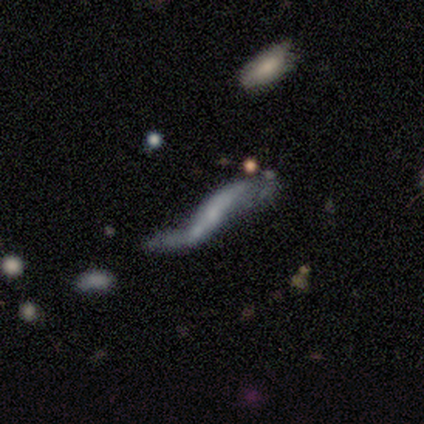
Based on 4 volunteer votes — Smooth or featured? 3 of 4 (75%) said featured or disk. Edge-on disk? 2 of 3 (67%) said no. Bar? 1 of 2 (50%, tied with no) said strong. Spiral arms? 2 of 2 (100%) said yes. Spiral winding? 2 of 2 (100%) said loose. Spiral arm count? 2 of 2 (100%) said 2. Bulge size? 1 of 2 (50%, tied with none) said small. Merging? 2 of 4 (50%) said major disturbance.